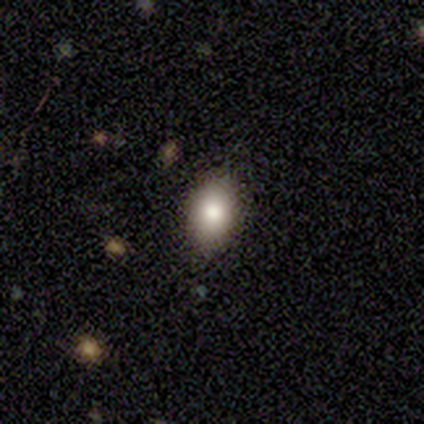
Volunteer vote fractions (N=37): A smooth galaxy with no disk features (89%) that is in between round and cigar-shaped (91%).

Vote fractions:
- Smooth or featured? smooth: 89% / star or artifact: 8% / featured or disk: 3%
- How rounded? in between: 91% / round: 9% / cigar-shaped: 0%
- Merging? none: 74% / minor disturbance: 24% / major disturbance: 3% / merger: 0%